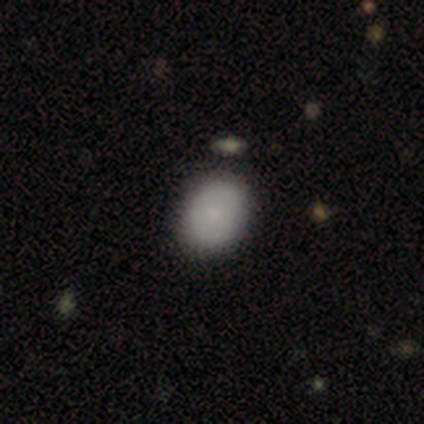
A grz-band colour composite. It shows a smooth galaxy with no disk features (79%) that is in between round and cigar-shaped (57%). Merging: none (89%).